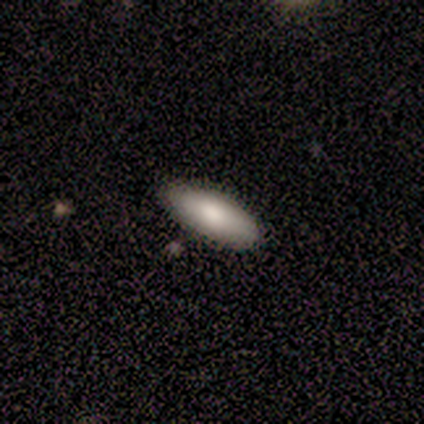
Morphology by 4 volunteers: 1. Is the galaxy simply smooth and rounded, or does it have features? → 100% smooth, 0% featured or disk, 0% star or artifact.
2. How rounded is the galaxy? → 100% in between, 0% round, 0% cigar-shaped.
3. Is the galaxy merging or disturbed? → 50% none (tied), 50% minor disturbance (tied), 0% major disturbance, 0% merger.